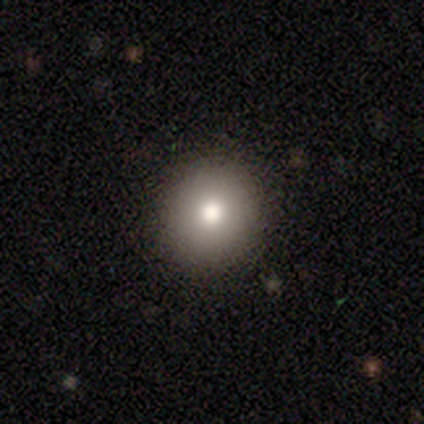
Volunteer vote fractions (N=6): A smooth galaxy with no disk features (83%) that is round (80%).

Vote fractions:
- Smooth or featured? smooth: 83% / featured or disk: 17% / star or artifact: 0%
- How rounded? round: 80% / in between: 20% / cigar-shaped: 0%
- Merging? none: 67% / minor disturbance: 33% / major disturbance: 0% / merger: 0%